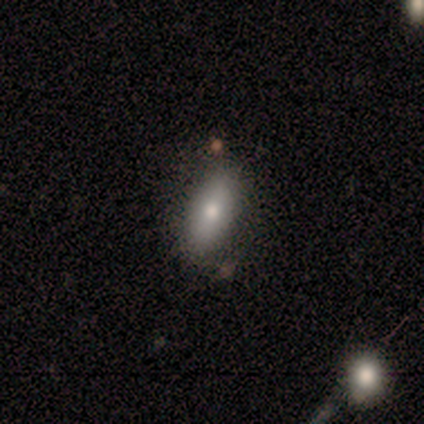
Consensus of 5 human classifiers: smooth_or_featured: smooth (p=0.80) [alt: star or artifact p=0.20]
how_rounded: in between (p=1.00)
merging: none (p=0.75) [alt: minor disturbance p=0.25]